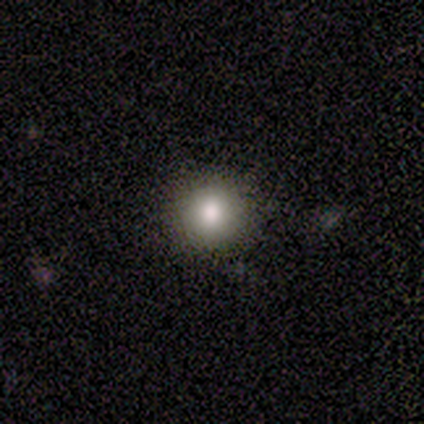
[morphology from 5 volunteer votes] Smooth or featured?
  - smooth: 100% *
  - featured or disk: 0%
  - star or artifact: 0%
How rounded?
  - round: 100% *
  - in between: 0%
  - cigar-shaped: 0%
Merging?
  - none: 100% *
  - minor disturbance: 0%
  - major disturbance: 0%
  - merger: 0%